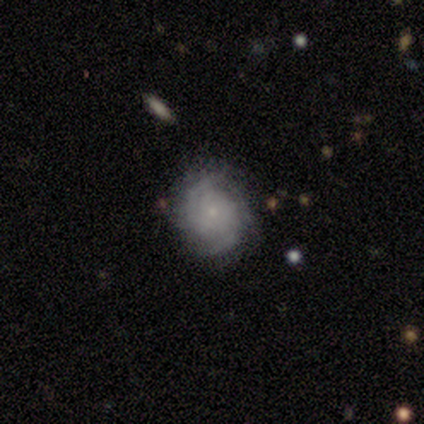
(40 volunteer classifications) Morphology: type=featured or disk (85%); edge-on=no (100%); bar=no (79%); spiral arms=yes (91%); winding=tight (55%); arm count=2 (55%); bulge=small (76%); merging=none (79%).